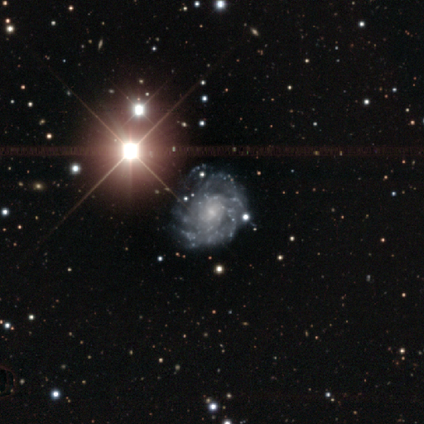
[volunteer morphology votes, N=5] smooth_or_featured: star or artifact (p=0.60) [alt: featured or disk p=0.40]